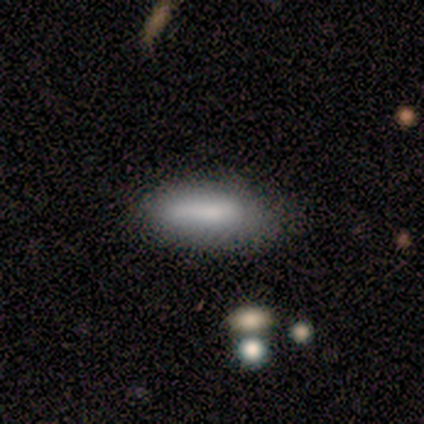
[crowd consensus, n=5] Volunteers were most divided on "merging": minor disturbance: 40%, none: 20%, major disturbance: 20%, merger: 20%. More confident: smooth or featured — smooth (80%); how rounded — in between (75%).